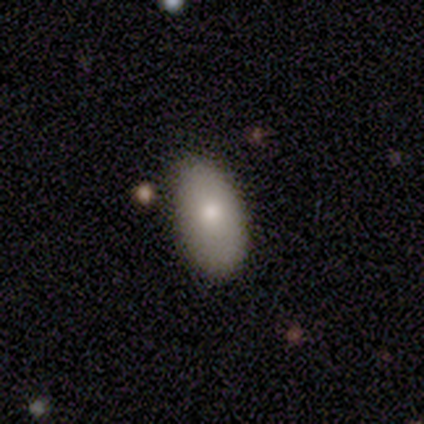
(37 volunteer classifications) Smooth or featured? 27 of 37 (73%) said smooth. How rounded? 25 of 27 (93%) said in between. Merging? 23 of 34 (68%) said none.